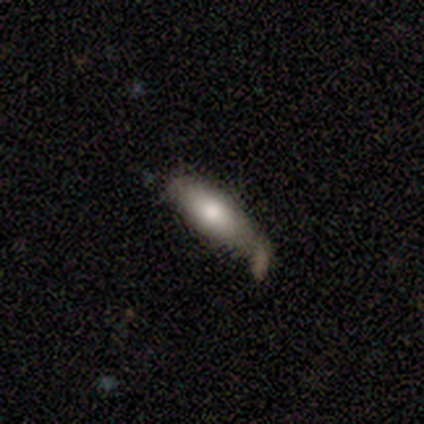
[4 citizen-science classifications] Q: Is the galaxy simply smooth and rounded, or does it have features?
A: smooth — 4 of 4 (100%).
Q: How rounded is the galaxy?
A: cigar-shaped — 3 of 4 (75%).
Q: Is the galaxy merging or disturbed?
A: minor disturbance — 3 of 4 (75%).